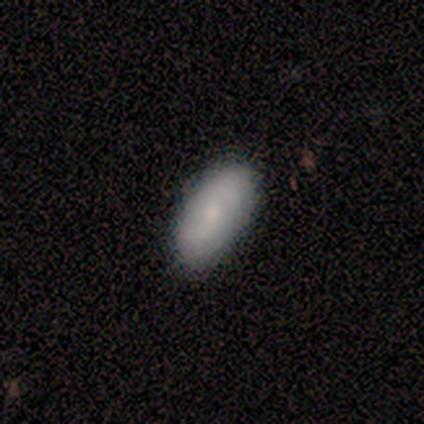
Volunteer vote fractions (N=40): A smooth galaxy with no disk features (62%) that is in between round and cigar-shaped (100%). Merging: none (47%).